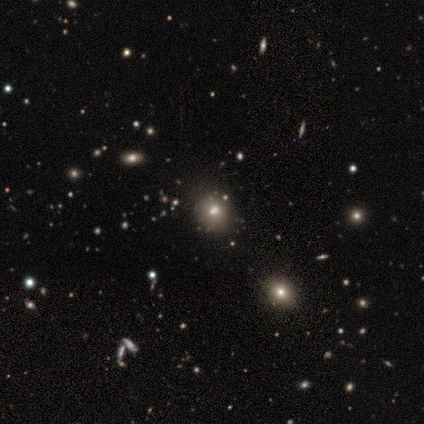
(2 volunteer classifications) Smooth or featured? 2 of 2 (100%) said star or artifact.